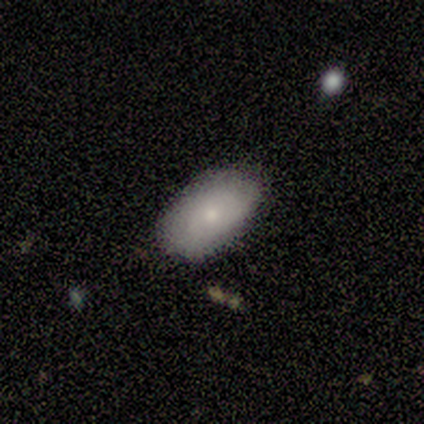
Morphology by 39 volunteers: Smooth or featured? 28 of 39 (72%) said smooth. How rounded? 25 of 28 (89%) said in between. Merging? 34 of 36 (94%) said none.